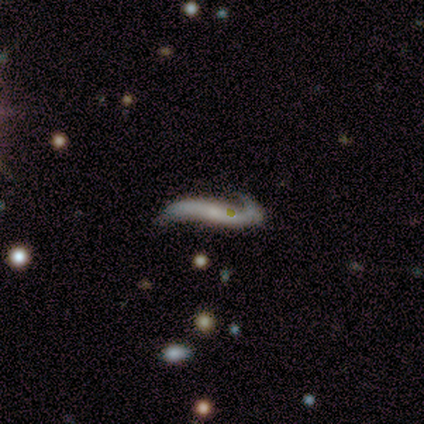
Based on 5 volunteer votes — Overall: featured or disk (100%). Edge-on disk: no (60%; yes 40%). Bar: no (100%). Spiral arms: yes (100%). Spiral arm count: 2 (67%; 1 33%). Spiral winding: loose (100%). Bulge size: small (67%; none 33%). Merging: none (60%; major disturbance 40%).